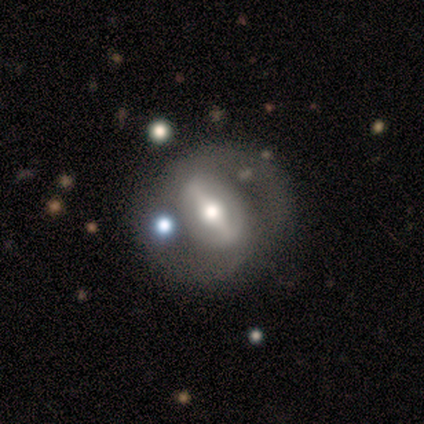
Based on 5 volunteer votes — smooth_or_featured: featured or disk (p=0.80) [alt: star or artifact p=0.20]
disk_edge_on: no (p=1.00)
bar: strong (p=1.00)
has_spiral_arms: yes (p=0.50) [tied with: no p=0.50]
spiral_winding: tight (p=1.00)
spiral_arm_count: 2 (p=1.00)
bulge_size: moderate (p=0.75) [alt: small p=0.25]
merging: none (p=0.75) [alt: minor disturbance p=0.25]